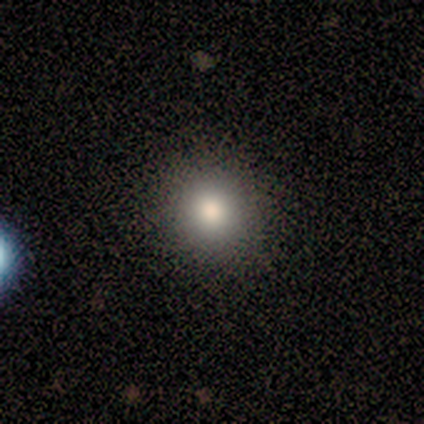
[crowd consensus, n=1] A smooth galaxy with no disk features (100%) that is round (100%).

Vote fractions:
- Smooth or featured? smooth: 100% / featured or disk: 0% / star or artifact: 0%
- How rounded? round: 100% / in between: 0% / cigar-shaped: 0%
- Merging? none: 100% / minor disturbance: 0% / major disturbance: 0% / merger: 0%